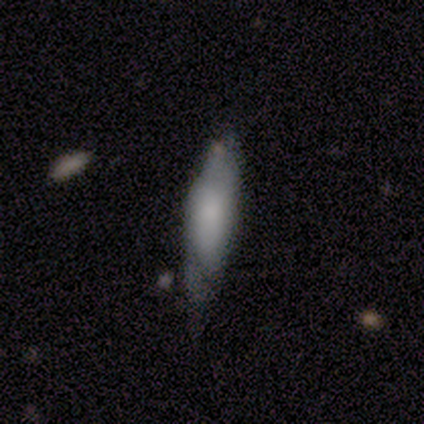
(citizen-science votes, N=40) This is possibly a smooth galaxy (50%). How rounded: likely cigar-shaped (65%). Merging: possibly none (56%).